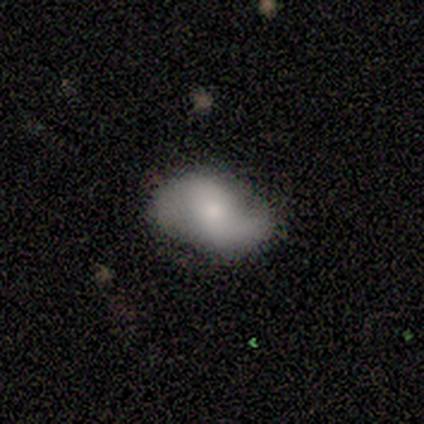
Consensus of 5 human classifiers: Volunteers were most divided on "bar": no: 60%, weak: 40%, strong: 0%. More confident: smooth or featured — featured or disk (100%); edge-on disk — no (100%); spiral arms — yes (100%); spiral arm count — 2 (100%); merging — none (80%); bulge size — small (60%); spiral winding — tight (60%).